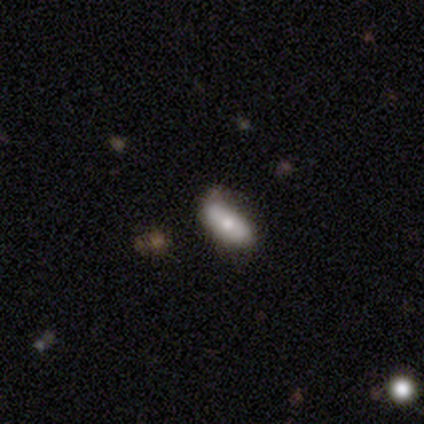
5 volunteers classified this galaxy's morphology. smooth-or-featured: smooth: 80% | featured or disk: 20% | star or artifact: 0%
  how-rounded: in between: 75% | cigar-shaped: 25% | round: 0%
  merging: none: 60% | minor disturbance: 20% | major disturbance: 20% | merger: 0%